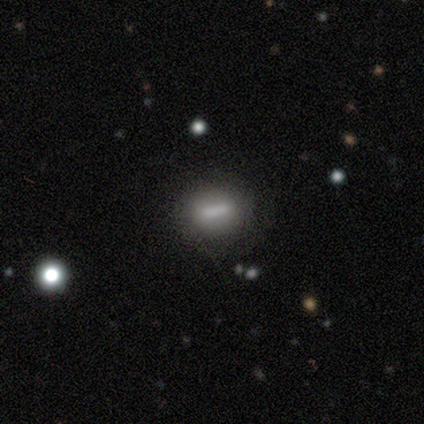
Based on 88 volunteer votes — smooth 65%, featured or disk 24%, star or artifact 11%. Down the decision tree: how rounded — cigar-shaped (39%); merging — none (88%).